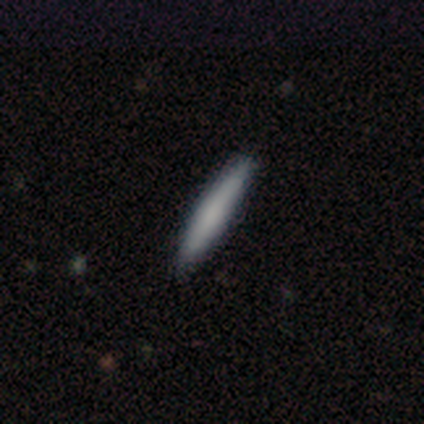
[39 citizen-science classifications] Volunteers were most divided on "smooth or featured": smooth: 67%, featured or disk: 28%, star or artifact: 5%. More confident: how rounded — cigar-shaped (100%); merging — none (89%).